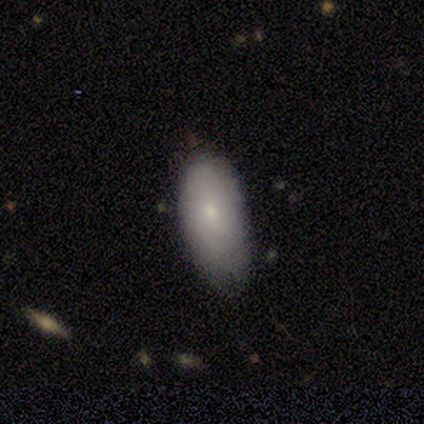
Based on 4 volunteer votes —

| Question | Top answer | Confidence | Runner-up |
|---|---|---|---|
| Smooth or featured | smooth | 100% | — |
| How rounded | in between | 100% | — |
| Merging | none | 75% | minor disturbance (25%) |